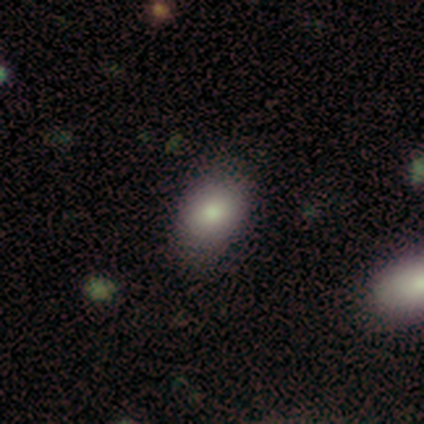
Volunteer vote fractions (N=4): Morphology: type=smooth (75%); roundness=round (67%); merging=none (75%).